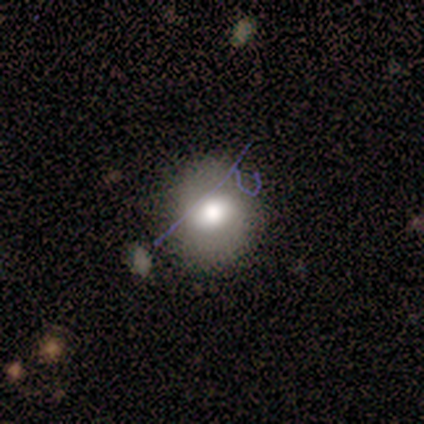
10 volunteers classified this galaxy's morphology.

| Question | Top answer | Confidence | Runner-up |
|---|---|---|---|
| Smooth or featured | smooth | 60% | featured or disk (20%) |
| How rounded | round | 67% | in between (33%) |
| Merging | none | 62% | minor disturbance (38%) |